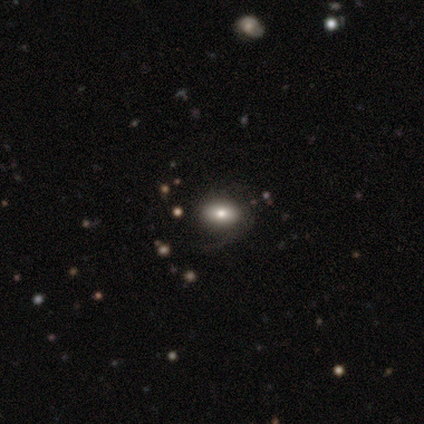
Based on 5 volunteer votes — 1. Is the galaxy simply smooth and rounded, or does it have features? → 40% smooth (tied), 40% featured or disk (tied), 20% star or artifact.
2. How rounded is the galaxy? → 50% round (tied), 50% cigar-shaped (tied), 0% in between.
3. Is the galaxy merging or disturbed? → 75% none, 25% major disturbance, 0% minor disturbance, 0% merger.